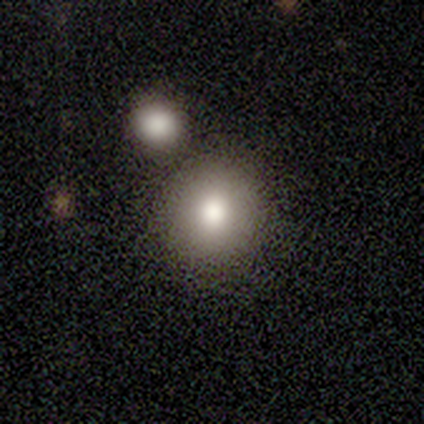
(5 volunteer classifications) smooth_or_featured: smooth (p=0.60) [alt: star or artifact p=0.40]
how_rounded: round (p=1.00)
merging: none (p=0.67) [alt: minor disturbance p=0.33]